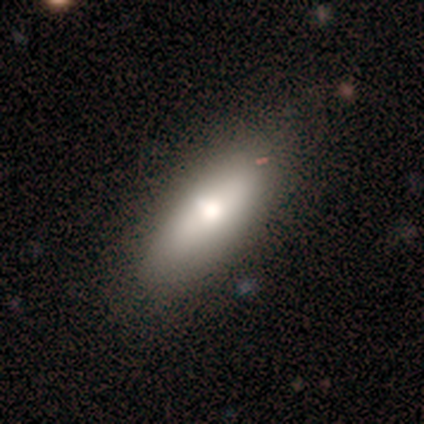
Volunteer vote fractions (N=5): Overall: smooth (80%). How rounded: in between (50%, tied with cigar-shaped). Merging: none (80%).